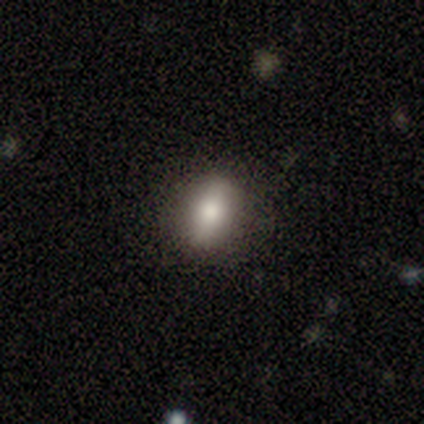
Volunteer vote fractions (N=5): Smooth or featured: smooth — 100%
How rounded: round — 60% (in between — 40%)
Merging: none — 100%